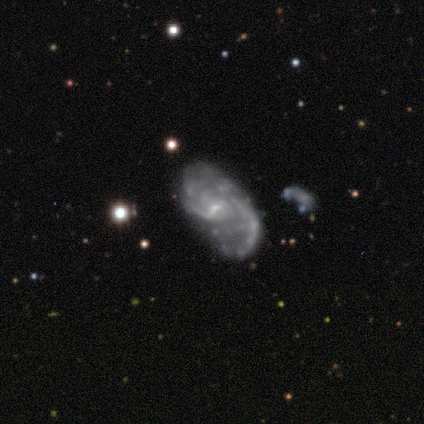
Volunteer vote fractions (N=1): smooth-or-featured: featured or disk: 100% | smooth: 0% | star or artifact: 0%
  disk-edge-on: no: 100% | yes: 0%
    bar: weak: 100% | strong: 0% | no: 0%
    has-spiral-arms: yes: 100% | no: 0%
      spiral-winding: tight: 100% | medium: 0% | loose: 0%
      spiral-arm-count: can't tell: 100% | 1: 0% | 2: 0% | 3: 0% | 4: 0% | more than 4: 0%
    bulge-size: moderate: 100% | dominant: 0% | large: 0% | small: 0% | none: 0%
  merging: major disturbance: 100% | none: 0% | minor disturbance: 0% | merger: 0%